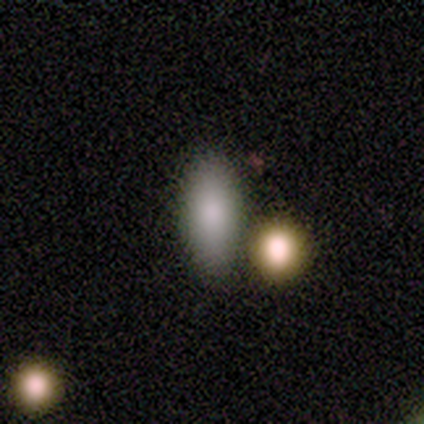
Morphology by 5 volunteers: smooth_or_featured: smooth (p=0.80) [alt: featured or disk p=0.20]
how_rounded: in between (p=1.00)
merging: none (p=1.00)